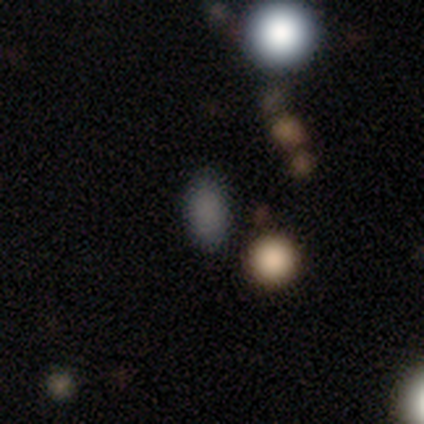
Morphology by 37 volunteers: This appears to be a smooth galaxy with no disk features (76%) that is in between round and cigar-shaped (75%). Merging: none (83%).